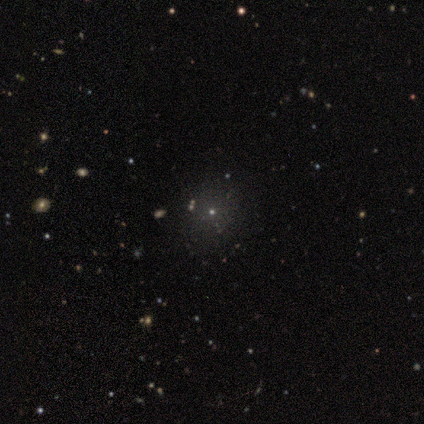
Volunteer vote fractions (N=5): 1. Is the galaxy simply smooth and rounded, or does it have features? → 60% smooth, 40% star or artifact, 0% featured or disk.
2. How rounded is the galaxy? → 100% round, 0% in between, 0% cigar-shaped.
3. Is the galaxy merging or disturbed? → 100% none, 0% minor disturbance, 0% major disturbance, 0% merger.